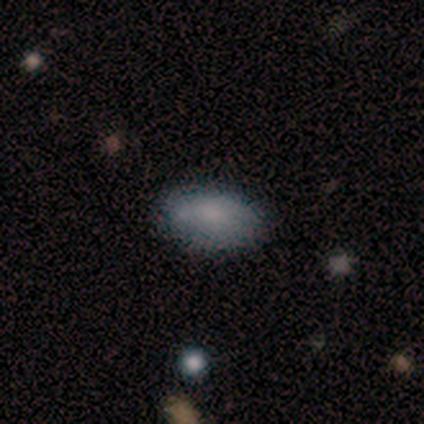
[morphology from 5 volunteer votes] type=smooth (60%); roundness=in between (100%); merging=none (40%).